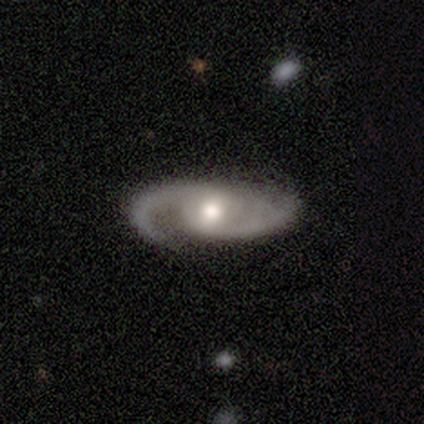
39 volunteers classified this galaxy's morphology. A featured or disk galaxy (90%) with no bar (53%), 2 (76%) medium (42%) spiral arms (97%) and a moderate central bulge (74%).

Vote fractions:
- Smooth or featured? featured or disk: 90% / smooth: 10% / star or artifact: 0%
- Edge-on disk? no: 97% / yes: 3%
- Bar? no: 53% / weak: 35% / strong: 12%
- Spiral arms? yes: 97% / no: 3%
- Spiral winding? medium: 42% / tight: 30% / loose: 27%
- Spiral arm count? 2: 76% / 1: 15% / can't tell: 6% / 3: 3% / 4: 0% / more than 4: 0%
- Bulge size? moderate: 74% / small: 18% / dominant: 9% / large: 0% / none: 0%
- Merging? none: 64% / minor disturbance: 23% / major disturbance: 13% / merger: 0%